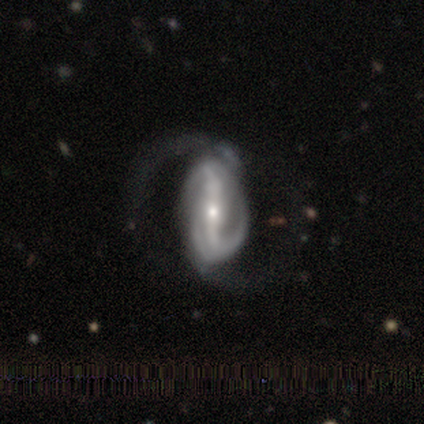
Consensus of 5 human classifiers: featured or disk 80%, smooth 20%, star or artifact 0%. Down the decision tree: edge-on disk — no (75%); bar — strong (100%); spiral arms — yes (100%); spiral arm count — 2 (67%); spiral winding — loose (67%); bulge size — small (67%); merging — none (40%, tied with major disturbance).